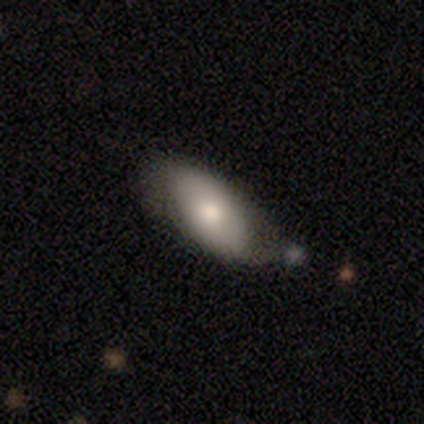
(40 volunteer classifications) Q: Smooth or featured?
A: smooth (75%); runner-up: featured or disk (25%)
Q: How rounded?
A: in between (77%); runner-up: cigar-shaped (13%)
Q: Merging?
A: none (42%); runner-up: minor disturbance (35%)